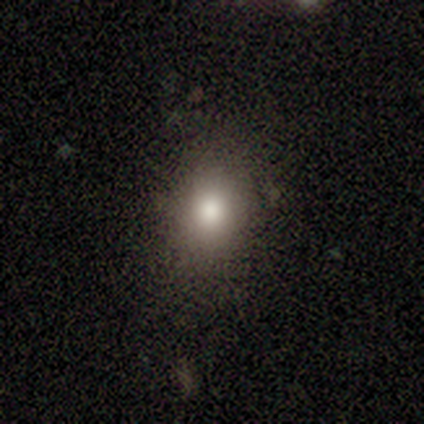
Smooth or featured: smooth — 100%
How rounded: round — 50% (tied with in between — 50%)
Merging: none — 83% (minor disturbance — 17%)